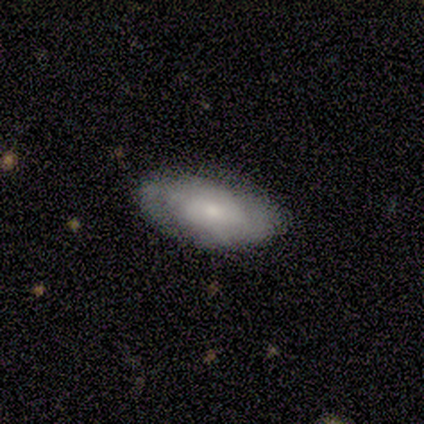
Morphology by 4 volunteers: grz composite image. It shows a smooth galaxy with no disk features (50%, tied with featured or disk) that is in between round and cigar-shaped (100%). Merging: none (75%).